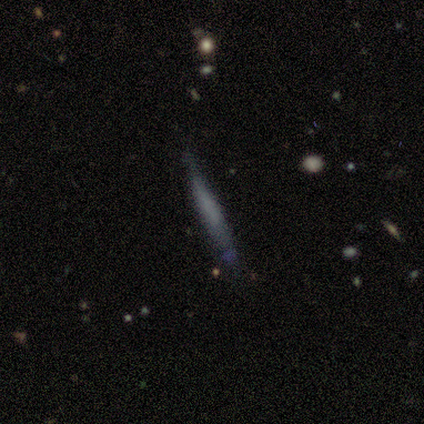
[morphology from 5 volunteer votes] Smooth or featured? 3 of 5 (60%) said smooth. How rounded? 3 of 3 (100%) said cigar-shaped. Merging? 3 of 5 (60%) said minor disturbance.